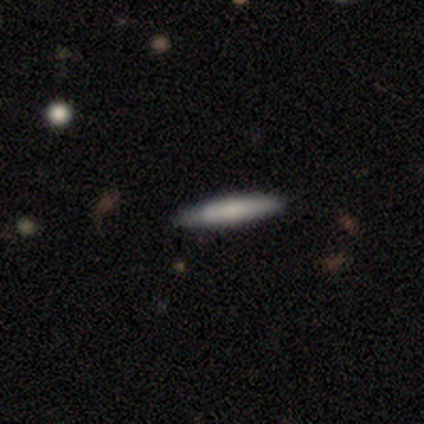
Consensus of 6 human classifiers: Q: Smooth or featured?
A: smooth (50%); runner-up: featured or disk (33%)
Q: How rounded?
A: cigar-shaped (100%)
Q: Merging?
A: none (100%)